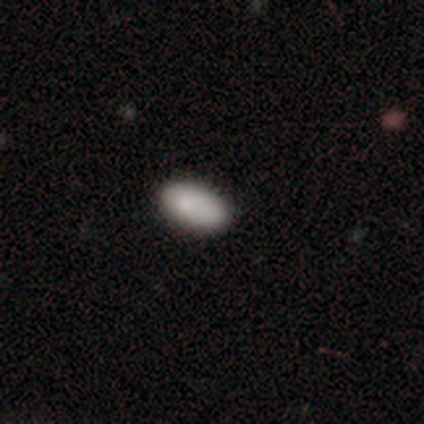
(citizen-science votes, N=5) A smooth galaxy with no disk features (100%) that is in between round and cigar-shaped (80%).

Vote fractions:
- Smooth or featured? smooth: 100% / featured or disk: 0% / star or artifact: 0%
- How rounded? in between: 80% / round: 20% / cigar-shaped: 0%
- Merging? none: 80% / merger: 20% / minor disturbance: 0% / major disturbance: 0%